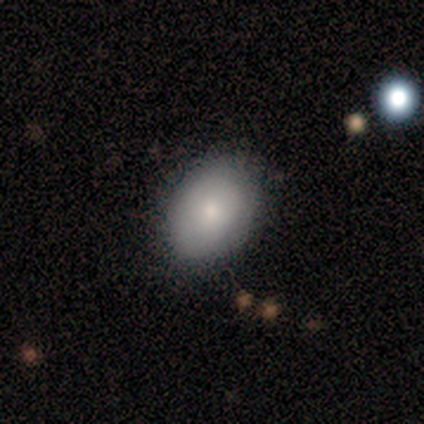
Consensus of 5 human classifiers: smooth-or-featured: smooth: 100% | featured or disk: 0% | star or artifact: 0%
  how-rounded: in between: 80% | round: 20% | cigar-shaped: 0%
  merging: none: 80% | minor disturbance: 20% | major disturbance: 0% | merger: 0%